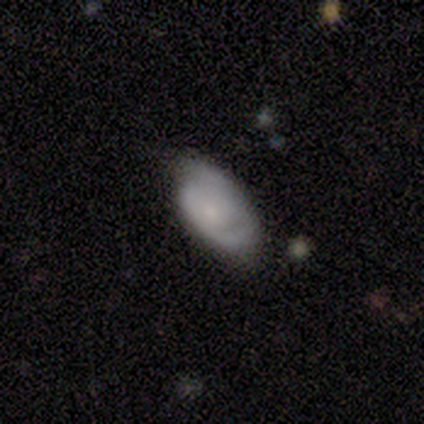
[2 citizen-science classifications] Q: Smooth or featured?
A: smooth (100%)
Q: How rounded?
A: in between (100%)
Q: Merging?
A: minor disturbance (100%)